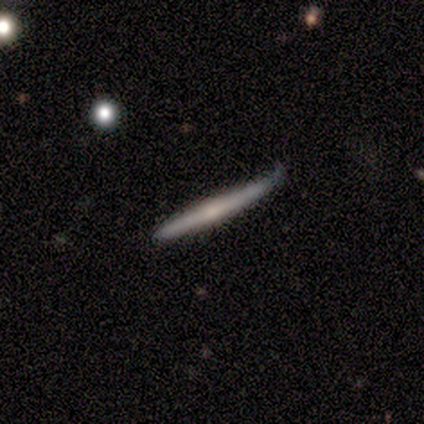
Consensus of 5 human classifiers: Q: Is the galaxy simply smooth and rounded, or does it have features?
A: featured or disk — 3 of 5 (60%).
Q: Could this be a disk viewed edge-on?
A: yes — 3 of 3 (100%).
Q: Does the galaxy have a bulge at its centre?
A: rounded — 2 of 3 (67%).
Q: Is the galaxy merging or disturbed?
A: minor disturbance — 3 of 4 (75%).